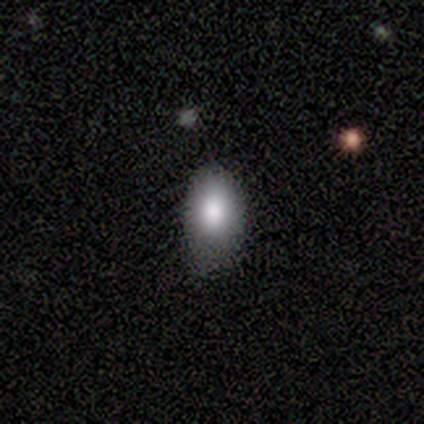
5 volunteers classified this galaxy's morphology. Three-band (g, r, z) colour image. It shows a smooth galaxy with no disk features (40%, tied with star or artifact) that is in between round and cigar-shaped (100%). Merging: none (67%).